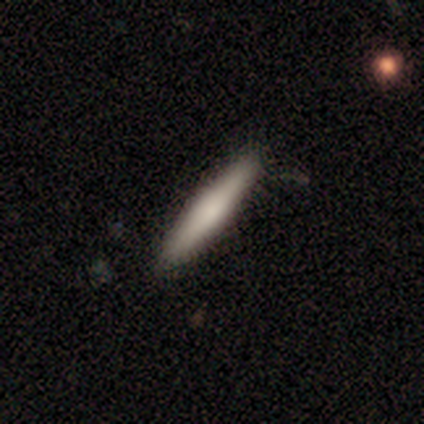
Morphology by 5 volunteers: A smooth galaxy with no disk features (60%) that is cigar-shaped (100%). Merging: none (100%).